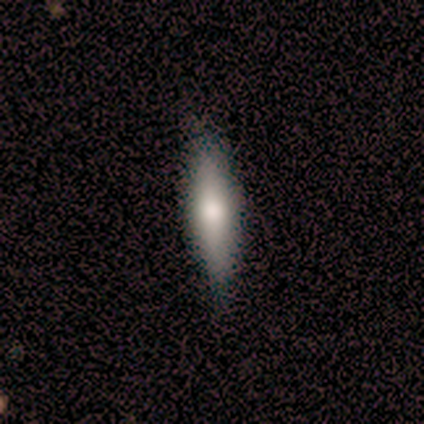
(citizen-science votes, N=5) smooth_or_featured: smooth (p=0.80) [alt: star or artifact p=0.20]
how_rounded: in between (p=0.75) [alt: cigar-shaped p=0.25]
merging: none (p=1.00)